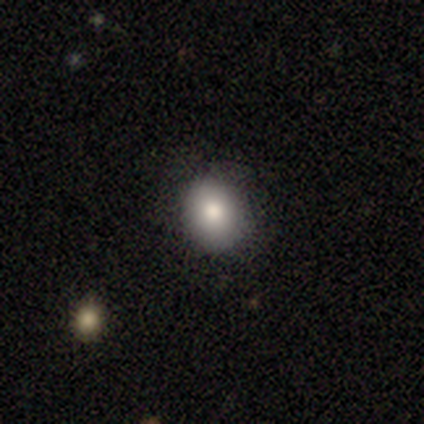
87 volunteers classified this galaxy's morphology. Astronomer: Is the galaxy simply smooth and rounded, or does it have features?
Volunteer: smooth — 79%.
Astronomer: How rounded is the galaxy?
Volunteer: round — 68%.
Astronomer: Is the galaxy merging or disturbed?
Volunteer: none — 91%.